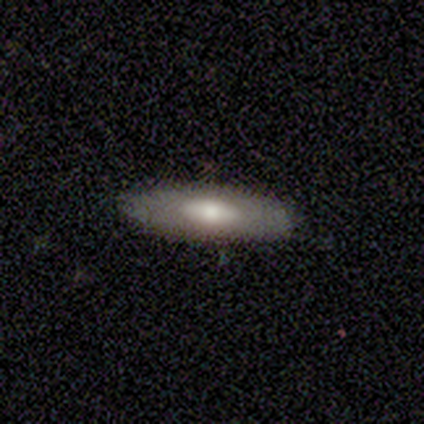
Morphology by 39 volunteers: smooth 72%, featured or disk 21%, star or artifact 8%. Down the decision tree: how rounded — in between (50%); merging — none (89%).